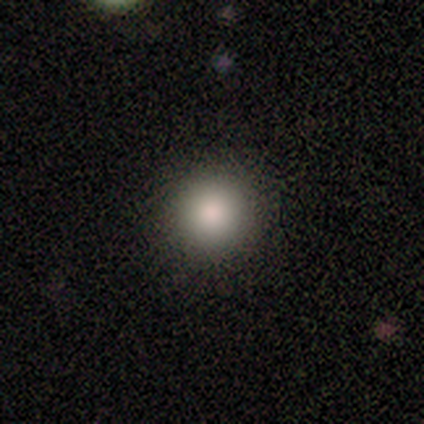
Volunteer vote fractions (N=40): This is clearly a smooth galaxy (80%). How rounded: clearly round (97%). Merging: clearly none (86%).